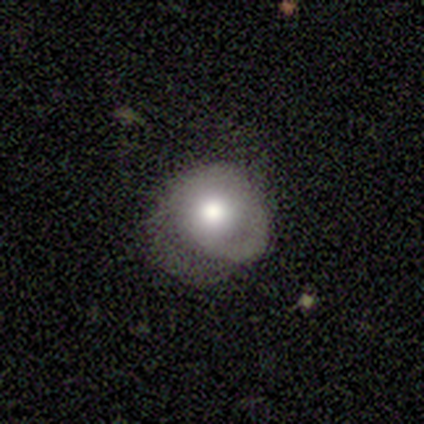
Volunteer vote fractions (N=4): Morphology: type=featured or disk (75%); edge-on=no (100%); bar=no (100%); spiral arms=yes (67%); winding=tight (50%, tied with medium); arm count=1 (50%, tied with can't tell); bulge=large (67%); merging=none (100%).